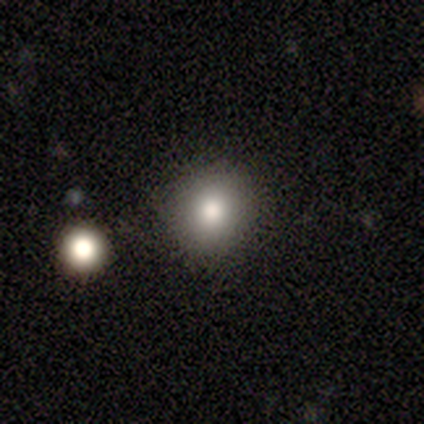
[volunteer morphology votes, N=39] Overall: smooth (74%). How rounded: round (86%). Merging: none (81%).